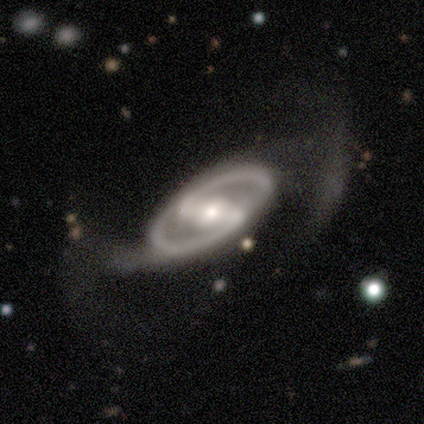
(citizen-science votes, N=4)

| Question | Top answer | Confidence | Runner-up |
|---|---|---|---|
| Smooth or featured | featured or disk | 100% | — |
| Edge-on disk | no | 100% | — |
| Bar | strong | 50% | tied: weak (50%) |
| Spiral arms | yes | 100% | — |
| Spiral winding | tight | 50% | tied: medium (50%) |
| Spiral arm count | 2 | 100% | — |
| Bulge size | small | 50% | dominant (25%) |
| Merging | minor disturbance | 75% | none (25%) |